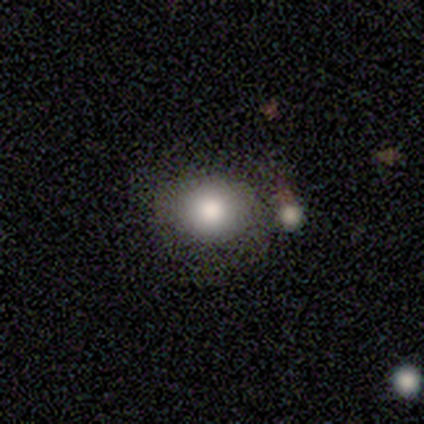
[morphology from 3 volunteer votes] Q: Smooth or featured?
A: smooth (100%)
Q: How rounded?
A: round (100%)
Q: Merging?
A: none (67%); runner-up: minor disturbance (33%)